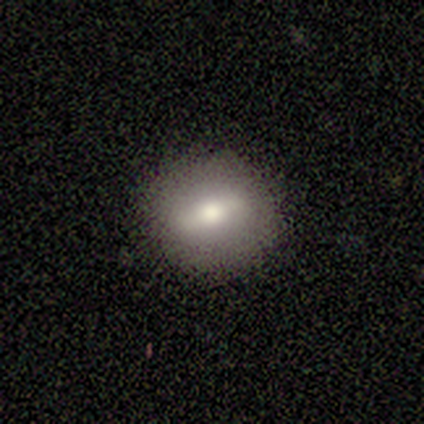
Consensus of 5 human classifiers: Morphology: type=smooth (60%); roundness=round (67%); merging=none (67%).